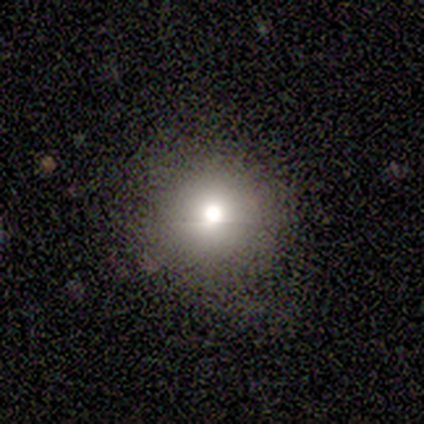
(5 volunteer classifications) A smooth galaxy with no disk features (60%) that is round (100%).

Vote fractions:
- Smooth or featured? smooth: 60% / featured or disk: 20% / star or artifact: 20%
- How rounded? round: 100% / in between: 0% / cigar-shaped: 0%
- Merging? none: 100% / minor disturbance: 0% / major disturbance: 0% / merger: 0%